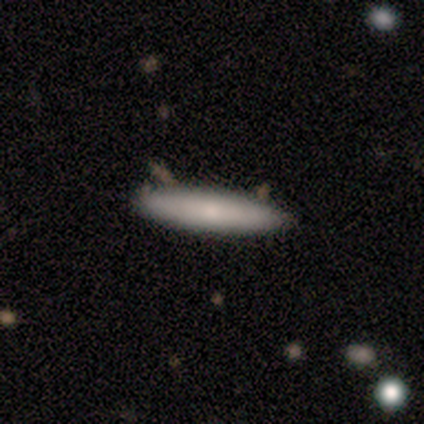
This appears to be a smooth galaxy with no disk features (40%, tied with star or artifact) that is cigar-shaped (100%). Merging: none (67%).